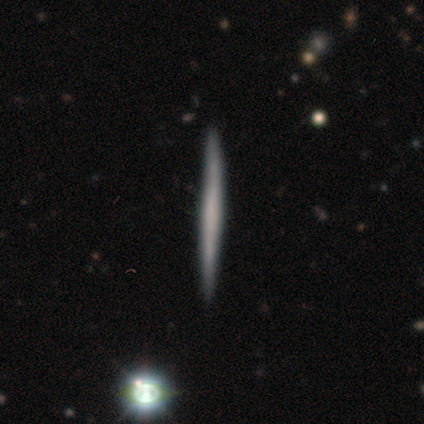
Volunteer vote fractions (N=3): A smooth galaxy with no disk features (100%) that is cigar-shaped (100%). Merging: none (100%).